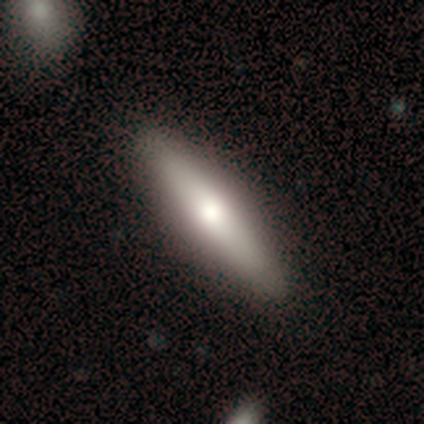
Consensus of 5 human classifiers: smooth_or_featured: featured or disk (p=1.00)
disk_edge_on: yes (p=1.00)
edge_on_bulge: rounded (p=0.60) [alt: boxy p=0.40]
merging: none (p=0.80) [alt: minor disturbance p=0.20]